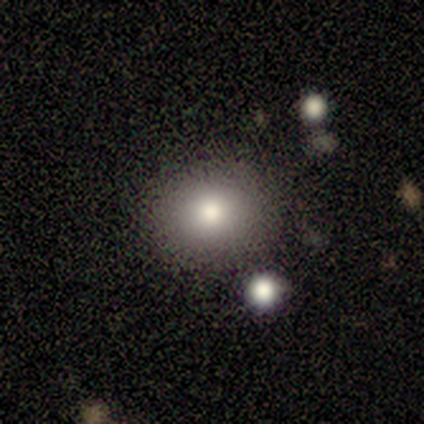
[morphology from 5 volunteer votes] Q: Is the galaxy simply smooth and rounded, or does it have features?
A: smooth — 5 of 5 (100%).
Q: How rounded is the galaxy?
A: round — 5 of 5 (100%).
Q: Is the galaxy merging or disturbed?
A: none — 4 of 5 (80%).